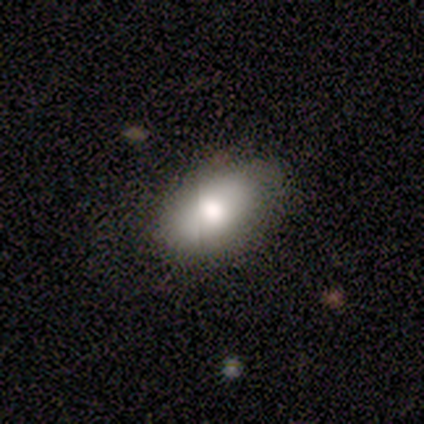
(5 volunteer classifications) Smooth or featured: smooth — 100%
How rounded: in between — 80% (round — 20%)
Merging: none — 60% (minor disturbance — 20%)